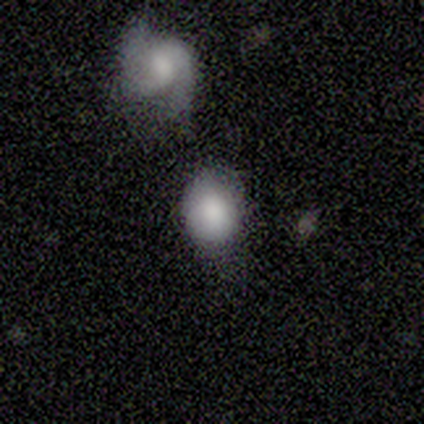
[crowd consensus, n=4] Smooth or featured? smooth (100%)
How rounded? in between (75%)
Merging? minor disturbance (75%)